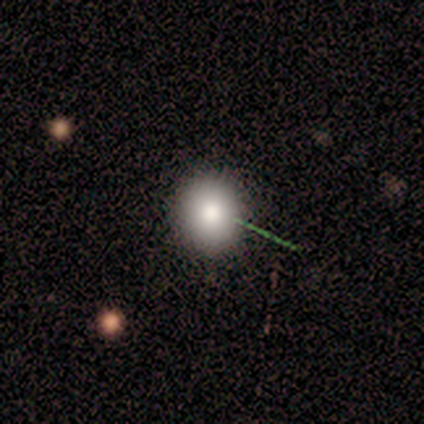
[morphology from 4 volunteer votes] Volunteers were most divided on "merging": none: 75%, minor disturbance: 25%, major disturbance: 0%, merger: 0%. More confident: smooth or featured — smooth (100%); how rounded — round (100%).